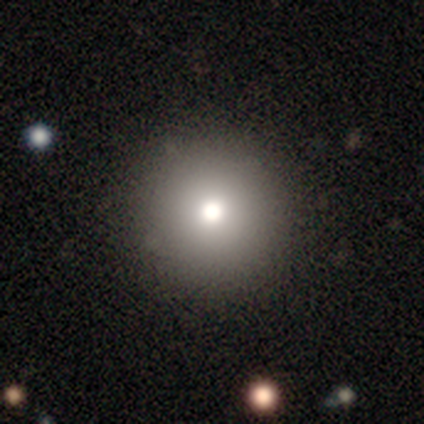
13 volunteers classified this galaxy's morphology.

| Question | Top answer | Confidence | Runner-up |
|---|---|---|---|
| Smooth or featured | smooth | 92% | star or artifact (8%) |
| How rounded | round | 100% | — |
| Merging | none | 92% | minor disturbance (8%) |